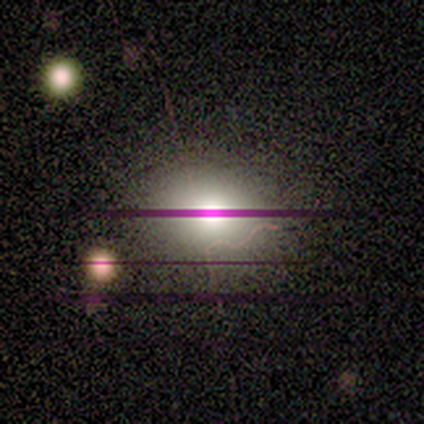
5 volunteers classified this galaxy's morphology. Q: Smooth or featured?
A: star or artifact (80%); runner-up: smooth (20%)